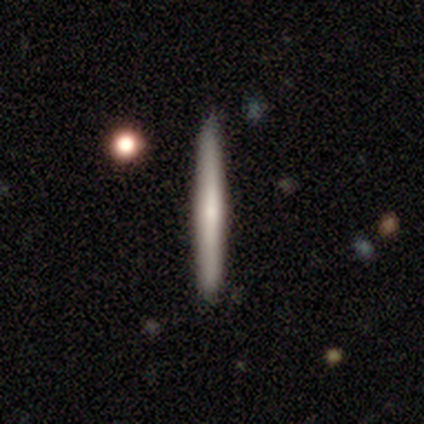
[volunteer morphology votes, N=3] type=smooth (67%); roundness=cigar-shaped (100%); merging=none (100%).